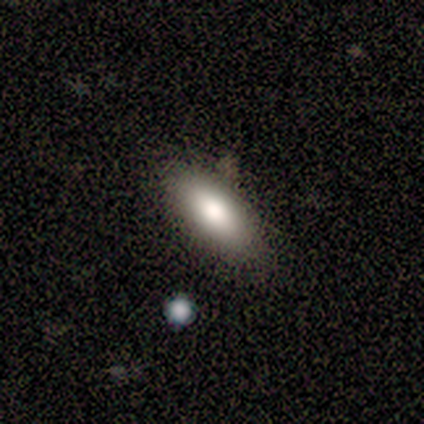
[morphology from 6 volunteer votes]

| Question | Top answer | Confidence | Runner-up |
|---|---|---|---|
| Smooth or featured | smooth | 83% | star or artifact (17%) |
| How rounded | in between | 60% | cigar-shaped (40%) |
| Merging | none | 100% | — |